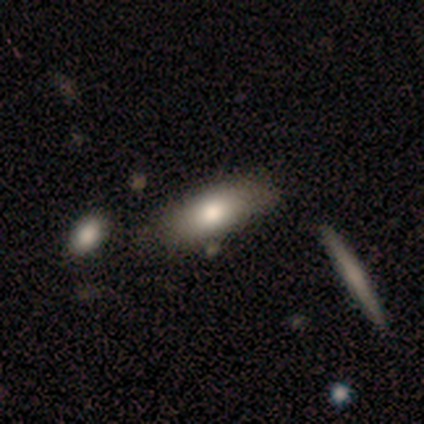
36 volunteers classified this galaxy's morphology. smooth-or-featured: smooth: 64% | featured or disk: 25% | star or artifact: 11%
  how-rounded: in between: 57% | cigar-shaped: 39% | round: 4%
  merging: none: 78% | merger: 12% | minor disturbance: 9% | major disturbance: 0%